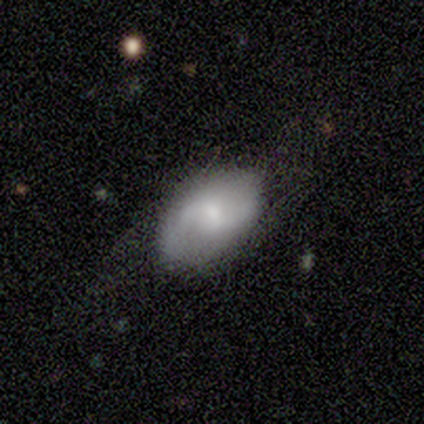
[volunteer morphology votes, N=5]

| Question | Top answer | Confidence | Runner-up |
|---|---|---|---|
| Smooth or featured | featured or disk | 80% | smooth (20%) |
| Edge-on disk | no | 100% | — |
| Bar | no | 75% | weak (25%) |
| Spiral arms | yes | 75% | no (25%) |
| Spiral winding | loose | 100% | — |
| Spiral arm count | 2 | 100% | — |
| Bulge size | small | 75% | large (25%) |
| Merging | none | 80% | major disturbance (20%) |